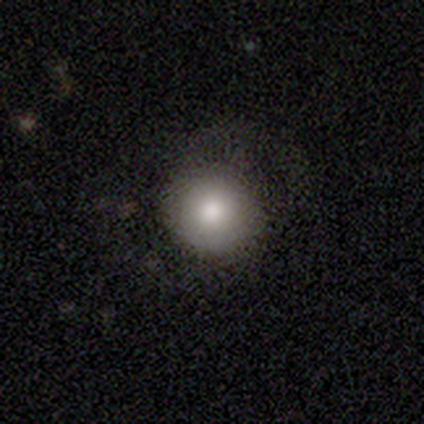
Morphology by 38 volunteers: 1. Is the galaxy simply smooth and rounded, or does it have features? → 76% smooth, 13% star or artifact, 11% featured or disk.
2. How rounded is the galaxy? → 100% round, 0% in between, 0% cigar-shaped.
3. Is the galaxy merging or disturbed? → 73% none, 21% minor disturbance, 6% major disturbance, 0% merger.